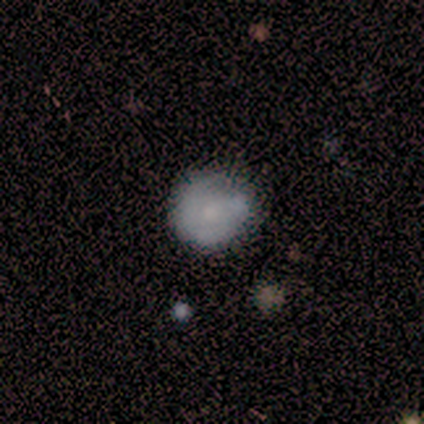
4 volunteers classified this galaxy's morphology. Smooth or featured? smooth (75%)
How rounded? round (67%)
Merging? none (75%)